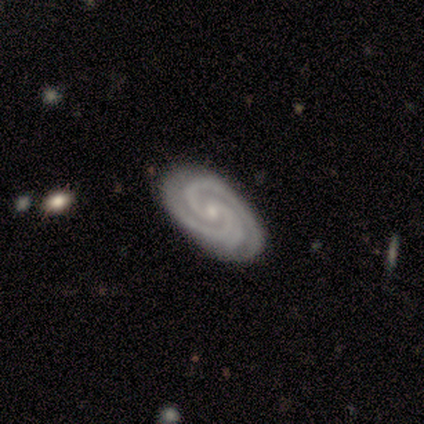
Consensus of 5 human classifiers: Q: Smooth or featured?
A: featured or disk (100%)
Q: Edge-on disk?
A: no (100%)
Q: Bar?
A: no (80%); runner-up: strong (20%)
Q: Spiral arms?
A: yes (100%)
Q: Spiral winding?
A: tight (100%)
Q: Spiral arm count?
A: 2 (80%); runner-up: 3 (20%)
Q: Bulge size?
A: small (60%); runner-up: moderate (20%)
Q: Merging?
A: none (100%)